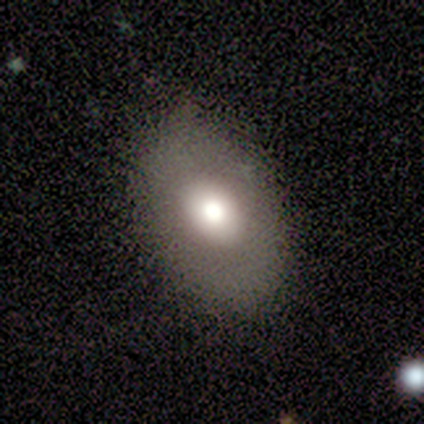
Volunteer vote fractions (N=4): Smooth or featured?
  - smooth: 75% *
  - featured or disk: 25%
  - star or artifact: 0%
How rounded?
  - in between: 100% *
  - round: 0%
  - cigar-shaped: 0%
Merging?
  - minor disturbance: 50% *
  - none: 25%
  - major disturbance: 25%
  - merger: 0%